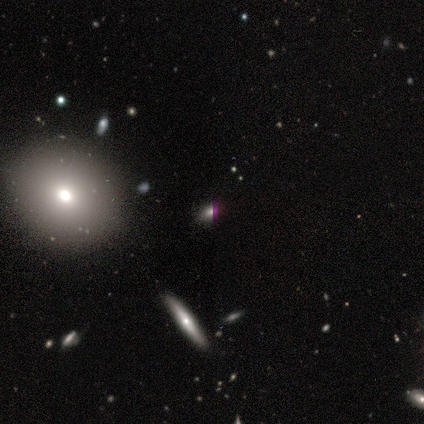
Q: Smooth or featured?
A: smooth (80%); runner-up: star or artifact (20%)
Q: How rounded?
A: round (50%); tied with: in between (50%)
Q: Merging?
A: none (100%)